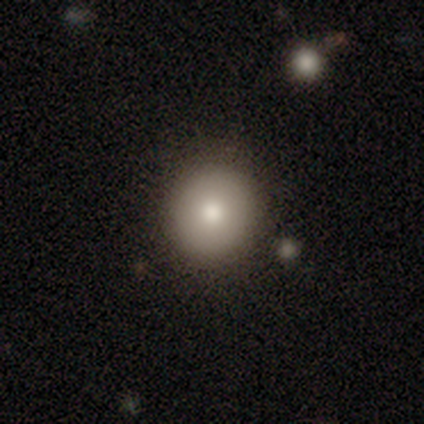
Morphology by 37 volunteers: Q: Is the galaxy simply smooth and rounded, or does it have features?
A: smooth — 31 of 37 (84%).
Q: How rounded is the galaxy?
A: round — 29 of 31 (94%).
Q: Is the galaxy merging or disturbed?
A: none — 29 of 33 (88%).